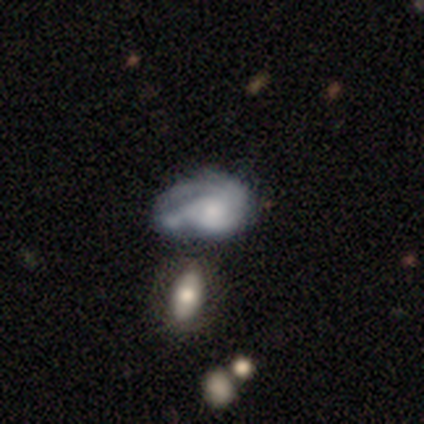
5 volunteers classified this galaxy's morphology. A featured or disk galaxy (80%) with a weak bar (50%, tied with no), medium (100%) spiral arms (75%) and a moderate central bulge (50%, tied with small).

Vote fractions:
- Smooth or featured? featured or disk: 80% / smooth: 20% / star or artifact: 0%
- Edge-on disk? no: 100% / yes: 0%
- Bar? weak: 50% (tied) / no: 50% (tied) / strong: 0%
- Spiral arms? yes: 75% / no: 25%
- Spiral winding? medium: 100% / tight: 0% / loose: 0%
- Spiral arm count? can't tell: 100% / 1: 0% / 2: 0% / 3: 0% / 4: 0% / more than 4: 0%
- Bulge size? moderate: 50% (tied) / small: 50% (tied) / dominant: 0% / large: 0% / none: 0%
- Merging? major disturbance: 60% / none: 20% / minor disturbance: 20% / merger: 0%